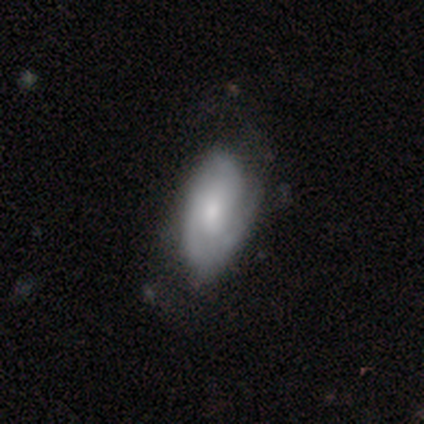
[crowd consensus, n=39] Volunteers were most divided on "bulge size": moderate: 50%, small: 38%, none: 8%, large: 4%, dominant: 0%. Remaining: edge-on disk — no (92%); spiral arms — yes (92%); smooth or featured — featured or disk (67%); bar — no (58%); merging — none (57%); spiral winding — medium (55%); spiral arm count — 2 (45%).